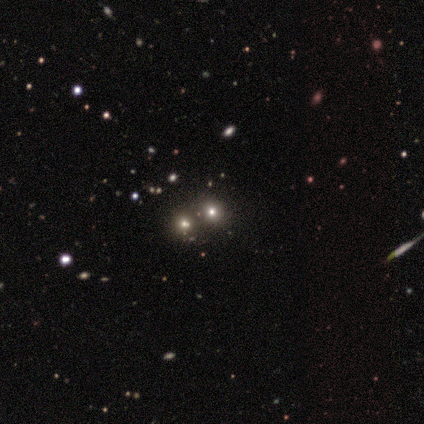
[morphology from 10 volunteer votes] Smooth or featured?
  - star or artifact: 50% *
  - smooth: 40%
  - featured or disk: 10%